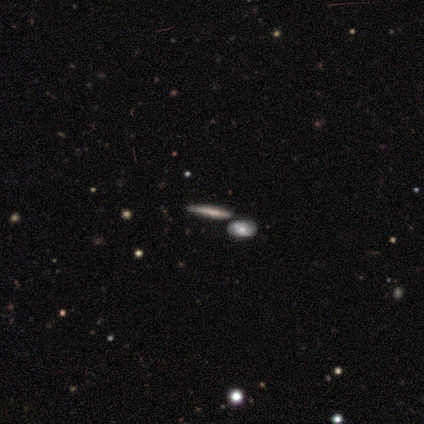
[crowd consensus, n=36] Smooth or featured? smooth (64%)
How rounded? cigar-shaped (91%)
Merging? none (80%)